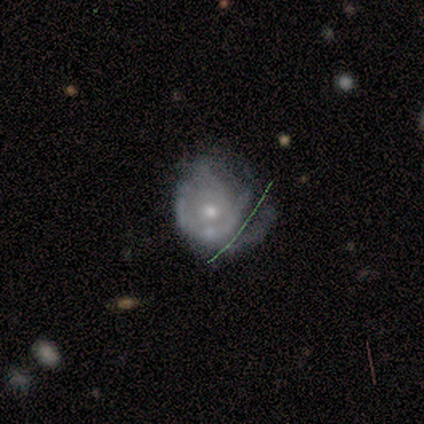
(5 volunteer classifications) This is clearly a featured or disk galaxy (80%). It is clearly not viewed edge-on (100%). Bar: likely no (75%). Spiral arm pattern: likely no (75%). Central bulge: possibly moderate (50%, tied with small). Merging: possibly minor disturbance (50%).